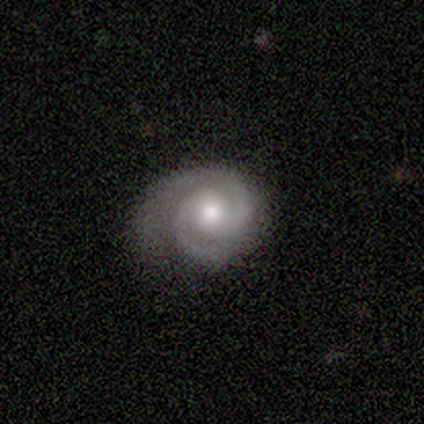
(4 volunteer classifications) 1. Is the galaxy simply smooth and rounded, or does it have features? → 100% featured or disk, 0% smooth, 0% star or artifact.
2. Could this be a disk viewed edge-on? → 100% no, 0% yes.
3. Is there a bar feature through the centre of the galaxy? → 75% no, 25% strong, 0% weak.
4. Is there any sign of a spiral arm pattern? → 100% yes, 0% no.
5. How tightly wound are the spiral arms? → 75% tight, 25% loose, 0% medium.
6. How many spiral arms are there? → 75% 2, 25% 3, 0% 1, 0% 4, 0% more than 4, 0% can't tell.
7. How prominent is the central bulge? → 50% moderate (tied), 50% small (tied), 0% dominant, 0% large, 0% none.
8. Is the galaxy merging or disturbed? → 75% none, 25% minor disturbance, 0% major disturbance, 0% merger.